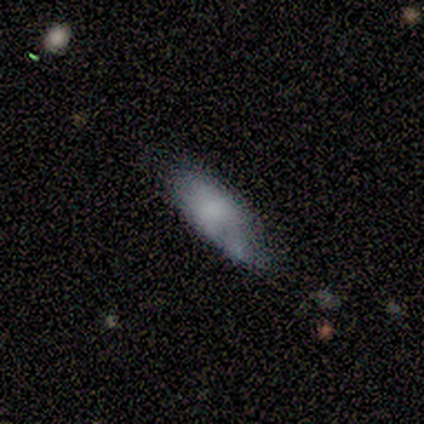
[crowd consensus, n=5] Morphology: type=smooth (60%); roundness=in between (67%); merging=none (40%, tied with minor disturbance).